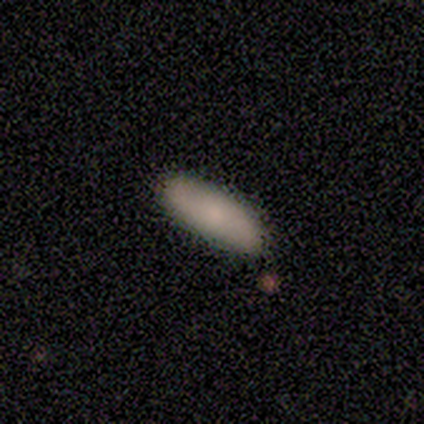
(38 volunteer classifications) Morphology: type=smooth (84%); roundness=in between (56%); merging=none (57%).